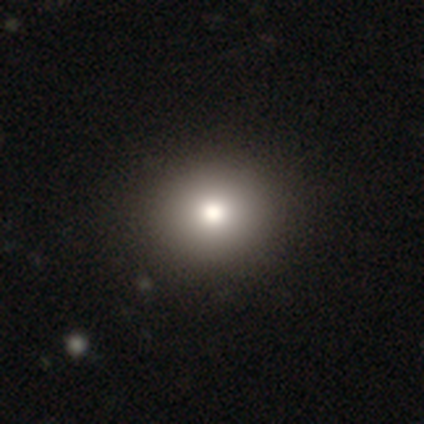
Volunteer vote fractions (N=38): Morphology: type=smooth (79%); roundness=round (83%); merging=none (61%).